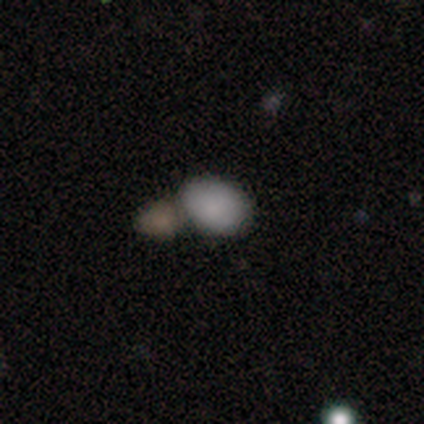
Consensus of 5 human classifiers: smooth 100%, featured or disk 0%, star or artifact 0%. Down the decision tree: how rounded — in between (100%); merging — none (40%, tied with merger).